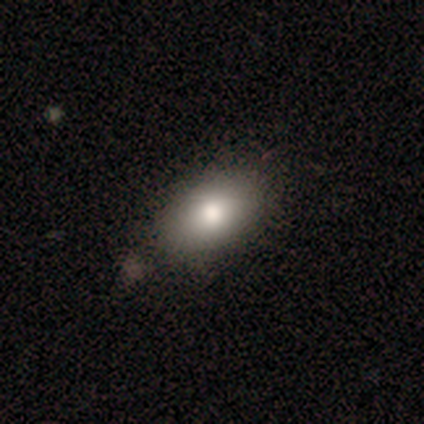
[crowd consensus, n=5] A smooth galaxy with no disk features (60%) that is in between round and cigar-shaped (100%). Merging: none (75%).